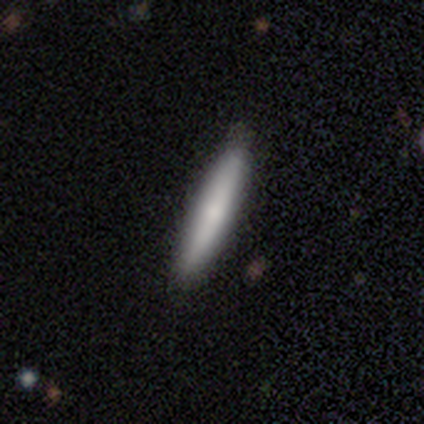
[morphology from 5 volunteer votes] This is clearly a featured or disk galaxy (80%). It is clearly viewed edge-on (100%). Edge-on bulge: likely none (75%). Merging: clearly none (100%).